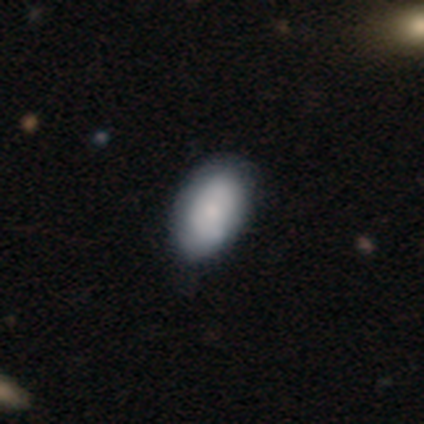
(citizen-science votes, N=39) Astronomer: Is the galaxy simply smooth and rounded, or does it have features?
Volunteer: smooth — 64%.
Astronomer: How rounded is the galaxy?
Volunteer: in between — 92%.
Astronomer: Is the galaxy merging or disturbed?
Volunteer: none — 51%.